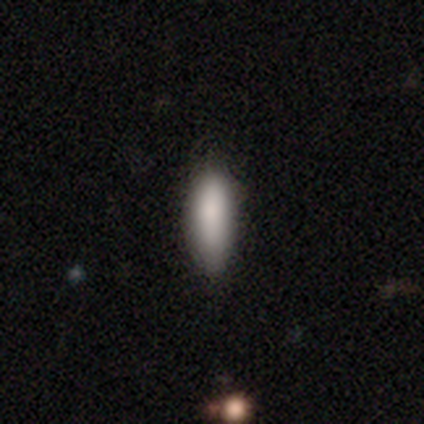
Smooth or featured? smooth (80%)
How rounded? in between (100%)
Merging? none (100%)